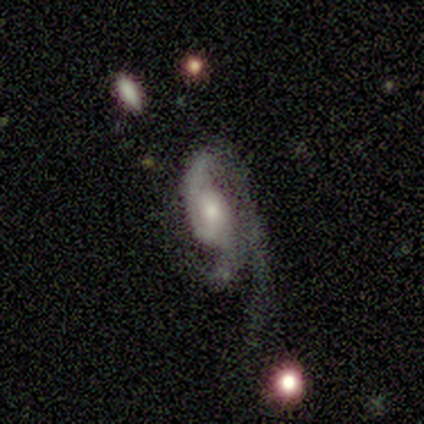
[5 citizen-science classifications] featured or disk 100%, smooth 0%, star or artifact 0%. Down the decision tree: edge-on disk — no (100%); bar — no (80%); spiral arms — no (60%); bulge size — moderate (60%); merging — major disturbance (60%).